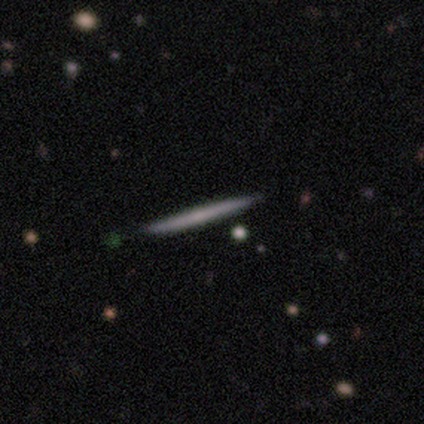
smooth_or_featured: smooth (p=0.67) [alt: featured or disk p=0.33]
how_rounded: cigar-shaped (p=1.00)
merging: none (p=1.00)